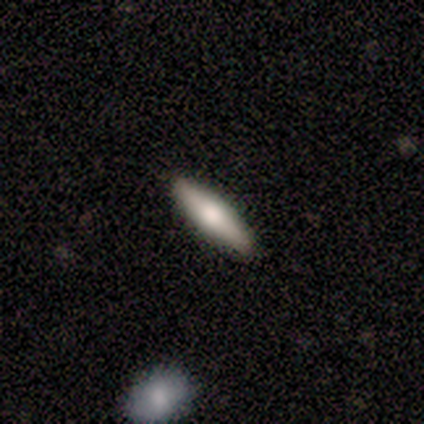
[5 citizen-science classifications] This appears to be a smooth galaxy with no disk features (80%) that is cigar-shaped (75%). Merging: none (80%).